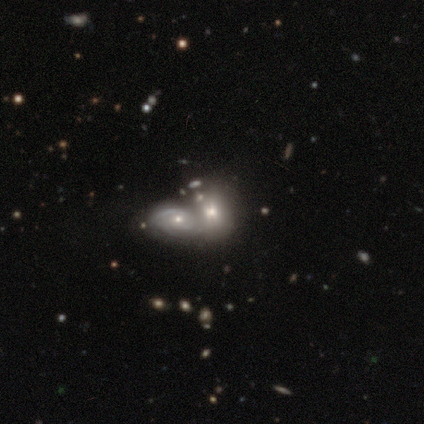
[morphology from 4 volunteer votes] type=smooth (50%, tied with featured or disk); roundness=round (50%, tied with in between); merging=merger (75%).